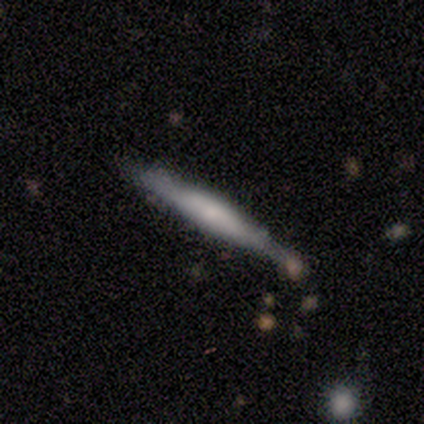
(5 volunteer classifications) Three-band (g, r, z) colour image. It shows a smooth galaxy with no disk features (80%) that is cigar-shaped (100%). Merging: none (60%).